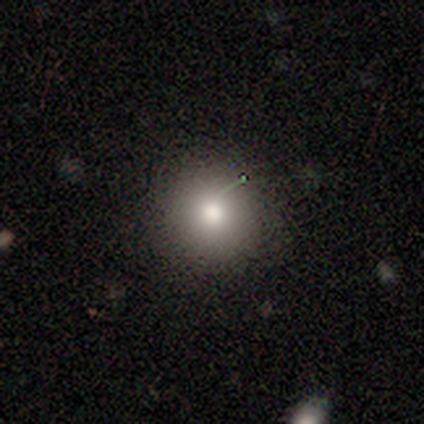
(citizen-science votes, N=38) This appears to be a smooth galaxy with no disk features (87%) that is round (97%). Merging: none (86%).